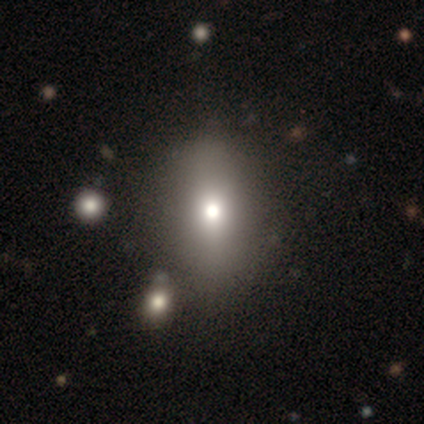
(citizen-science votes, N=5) smooth 60%, star or artifact 40%, featured or disk 0%. Down the decision tree: how rounded — in between (100%); merging — none (100%).